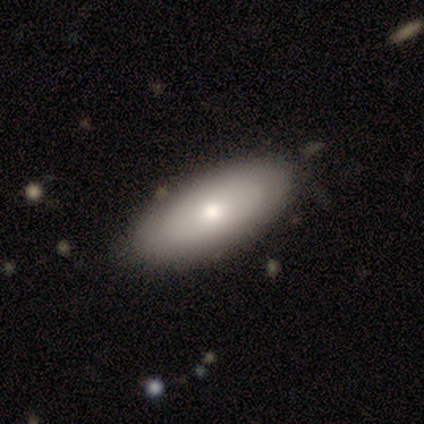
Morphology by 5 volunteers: smooth_or_featured: featured or disk (p=0.60) [alt: smooth p=0.40]
disk_edge_on: no (p=0.67) [alt: yes p=0.33]
bar: no (p=1.00)
has_spiral_arms: no (p=1.00)
bulge_size: moderate (p=1.00)
merging: none (p=1.00)